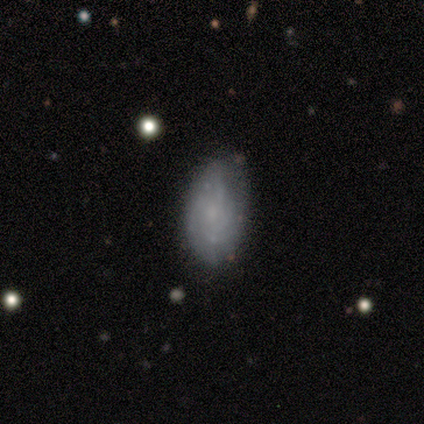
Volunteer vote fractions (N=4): Smooth or featured? 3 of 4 (75%) said featured or disk. Edge-on disk? 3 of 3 (100%) said no. Bar? 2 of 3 (67%) said no. Spiral arms? 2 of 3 (67%) said yes. Spiral winding? 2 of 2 (100%) said medium. Spiral arm count? 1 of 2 (50%, tied with 4) said 2. Bulge size? 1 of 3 (33%, tied with small and none) said moderate. Merging? 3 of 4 (75%) said none.